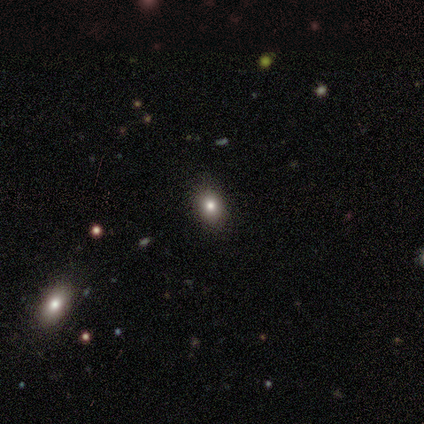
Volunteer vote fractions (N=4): Morphology: type=smooth (100%); roundness=in between (75%); merging=none (100%).